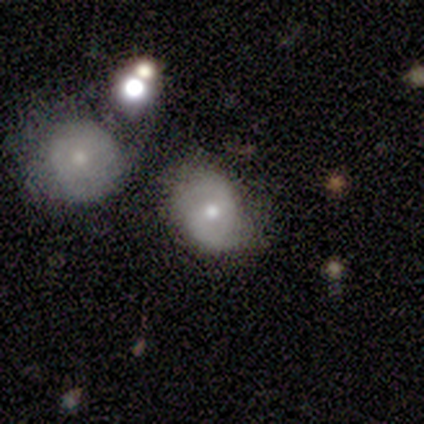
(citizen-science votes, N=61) This appears to be a featured or disk galaxy (67%) with a weak bar (56%), 2 (97%) tight (42%, tied with medium) spiral arms (85%) and a moderate central bulge (87%). Merging: none (50%).